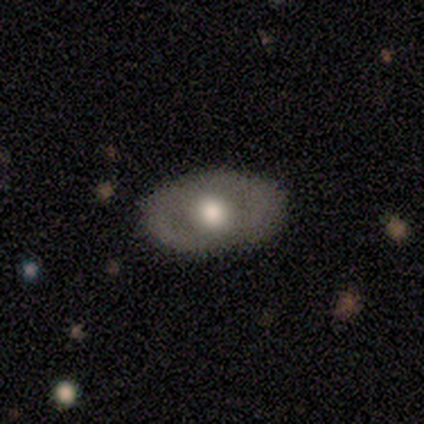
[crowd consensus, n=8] smooth-or-featured: smooth: 50% (tied) | featured or disk: 50% (tied) | star or artifact: 0%
  how-rounded: in between: 75% | round: 25% | cigar-shaped: 0%
  merging: none: 75% | minor disturbance: 25% | major disturbance: 0% | merger: 0%